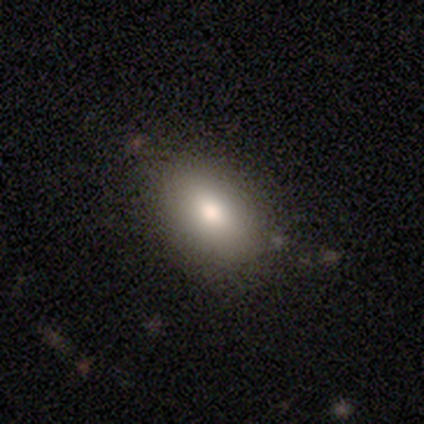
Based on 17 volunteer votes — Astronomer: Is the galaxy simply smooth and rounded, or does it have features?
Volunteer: smooth — 76%.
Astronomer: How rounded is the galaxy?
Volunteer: in between — 100%.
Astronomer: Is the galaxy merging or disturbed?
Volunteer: none — 81%.